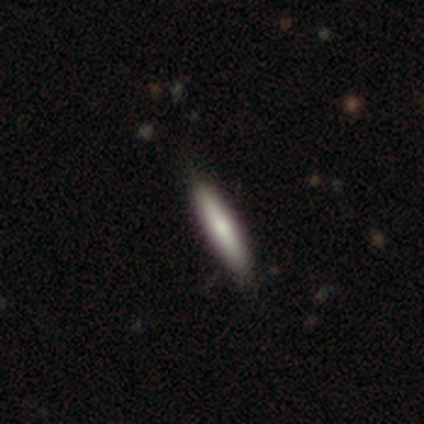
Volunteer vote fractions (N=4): A smooth galaxy with no disk features (75%) that is cigar-shaped (100%). Merging: none (100%).